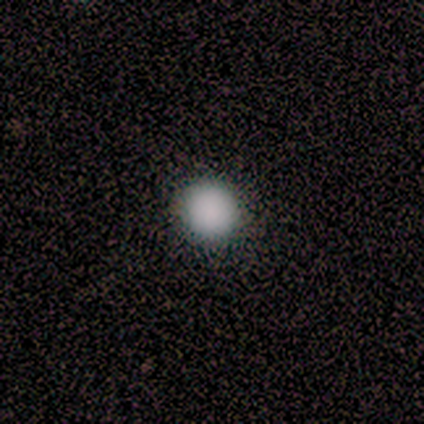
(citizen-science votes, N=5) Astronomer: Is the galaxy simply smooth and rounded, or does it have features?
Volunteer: smooth — 80%.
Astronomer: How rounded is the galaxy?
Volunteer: round — 100%.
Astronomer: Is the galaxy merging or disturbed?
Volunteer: none — 100%.